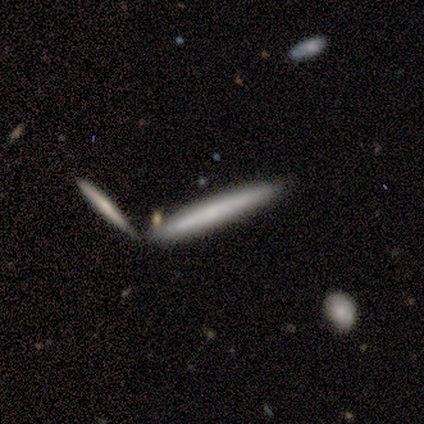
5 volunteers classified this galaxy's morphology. type=featured or disk (60%); edge-on=yes (100%); edge-on bulge=rounded (67%); merging=merger (50%).